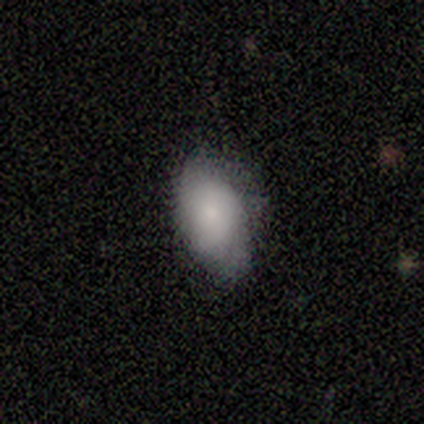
smooth 80%, featured or disk 20%, star or artifact 0%. Down the decision tree: how rounded — round (50%, tied with in between); merging — none (60%).